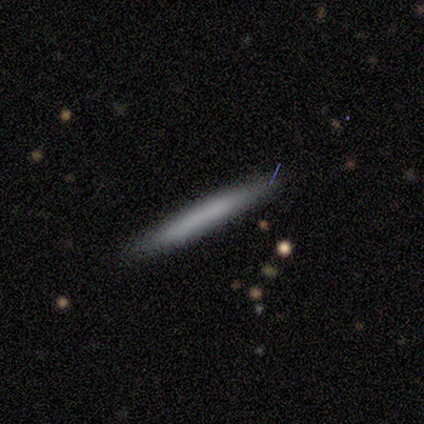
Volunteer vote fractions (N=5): Smooth or featured? smooth (80%)
How rounded? cigar-shaped (100%)
Merging? none (60%)